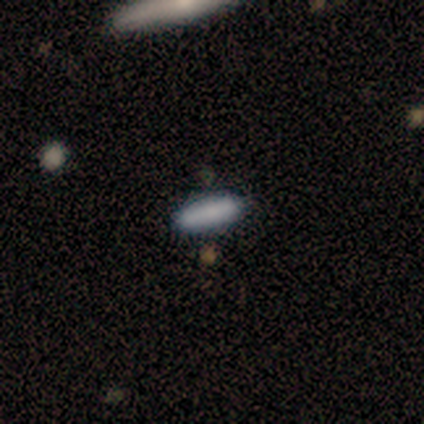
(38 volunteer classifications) A smooth galaxy with no disk features (87%) that is cigar-shaped (58%). Merging: none (100%).